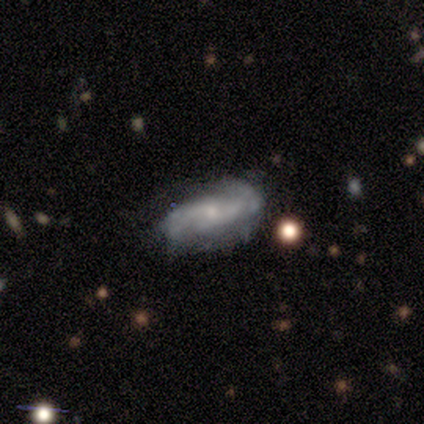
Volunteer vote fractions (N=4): Smooth or featured?
  - featured or disk: 75% *
  - smooth: 25%
  - star or artifact: 0%
Edge-on disk?
  - no: 100% *
  - yes: 0%
Bar?
  - no: 67% *
  - strong: 33%
  - weak: 0%
Spiral arms?
  - yes: 100% *
  - no: 0%
Spiral winding?
  - medium: 67% *
  - loose: 33%
  - tight: 0%
Spiral arm count?
  - 2: 67% *
  - 3: 33%
  - 1: 0%
  - 4: 0%
  - more than 4: 0%
  - can't tell: 0%
Bulge size?
  - small: 67% *
  - moderate: 33%
  - dominant: 0%
  - large: 0%
  - none: 0%
Merging?
  - none: 50% * (tied)
  - minor disturbance: 50% * (tied)
  - major disturbance: 0%
  - merger: 0%